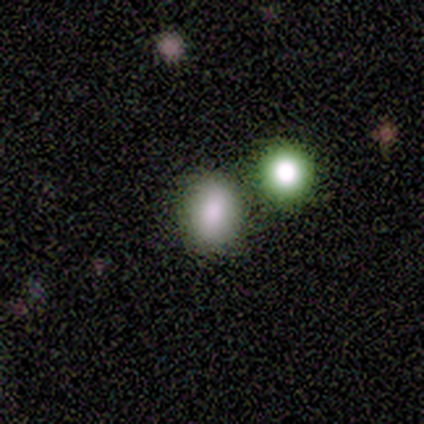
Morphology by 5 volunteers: Q: Smooth or featured?
A: smooth (80%); runner-up: star or artifact (20%)
Q: How rounded?
A: round (50%); tied with: in between (50%)
Q: Merging?
A: none (75%); runner-up: merger (25%)